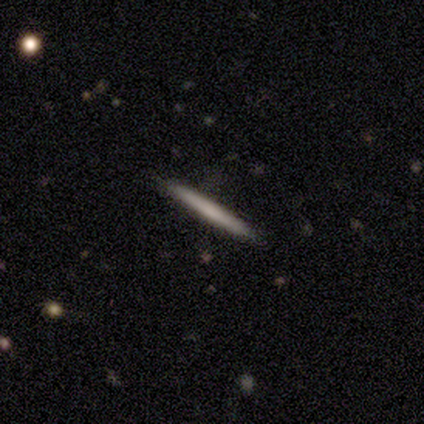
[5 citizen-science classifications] featured or disk 60%, smooth 40%, star or artifact 0%. Down the decision tree: edge-on disk — yes (100%); edge-on bulge — none (100%); merging — none (100%).